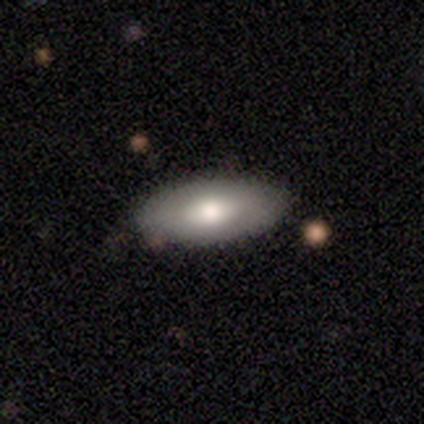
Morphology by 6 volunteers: Q: Smooth or featured?
A: smooth (67%); runner-up: featured or disk (17%)
Q: How rounded?
A: in between (100%)
Q: Merging?
A: none (100%)